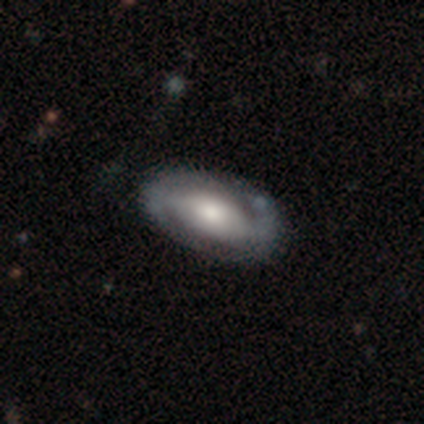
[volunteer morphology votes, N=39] type=featured or disk (82%); edge-on=no (97%); bar=weak (39%); spiral arms=yes (61%); winding=medium (47%); arm count=2 (95%); bulge=moderate (61%); merging=none (47%).